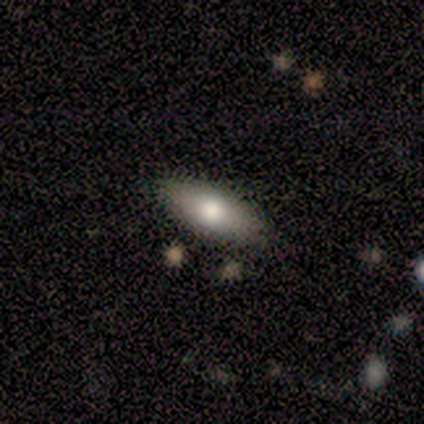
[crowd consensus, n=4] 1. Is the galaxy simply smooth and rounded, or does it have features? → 75% smooth, 25% star or artifact, 0% featured or disk.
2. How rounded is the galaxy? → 100% in between, 0% round, 0% cigar-shaped.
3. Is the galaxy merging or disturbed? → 100% none, 0% minor disturbance, 0% major disturbance, 0% merger.